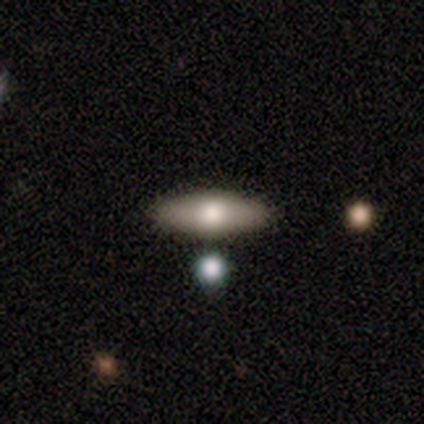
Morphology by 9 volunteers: Smooth or featured? smooth (44%, tied with featured or disk)
How rounded? in between (100%)
Merging? none (88%)